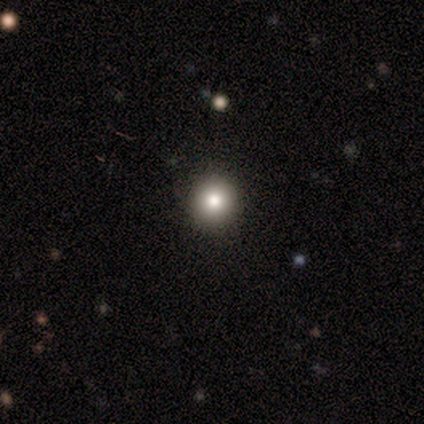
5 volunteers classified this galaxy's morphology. type=smooth (60%); roundness=round (100%); merging=none (100%).